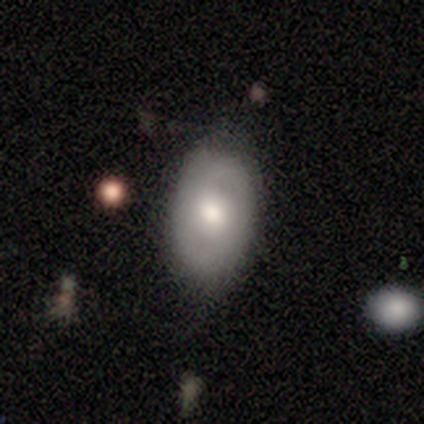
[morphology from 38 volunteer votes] Overall: smooth (58%; featured or disk 37%). How rounded: in between (82%). Merging: none (58%; minor disturbance 31%).